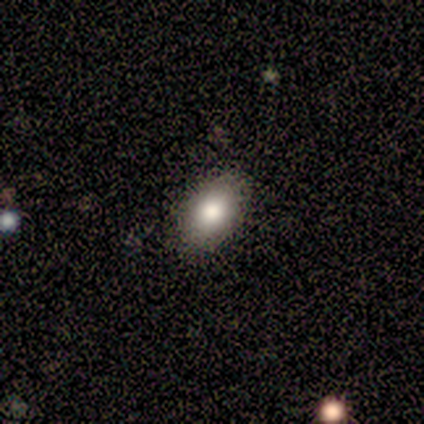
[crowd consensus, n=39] Smooth or featured? smooth (82%)
How rounded? in between (91%)
Merging? none (91%)